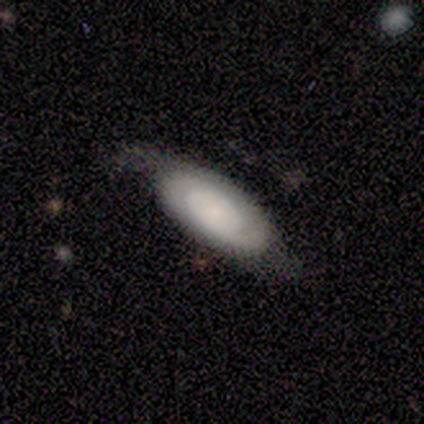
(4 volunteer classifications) Q: Smooth or featured?
A: smooth (50%); tied with: featured or disk (50%)
Q: How rounded?
A: round (50%); tied with: in between (50%)
Q: Merging?
A: none (75%); runner-up: minor disturbance (25%)